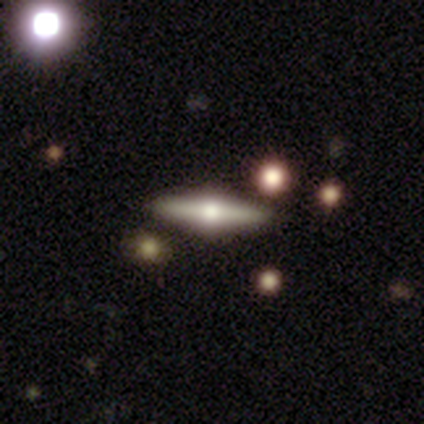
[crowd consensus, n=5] Morphology: type=featured or disk (100%); edge-on=yes (100%); edge-on bulge=rounded (100%); merging=none (100%).